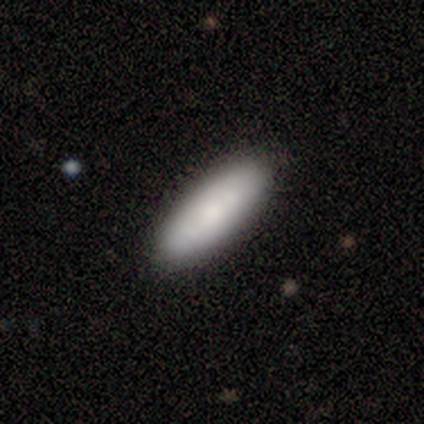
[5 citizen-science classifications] A smooth galaxy with no disk features (80%) that is in between round and cigar-shaped (50%, tied with cigar-shaped). Merging: none (100%).